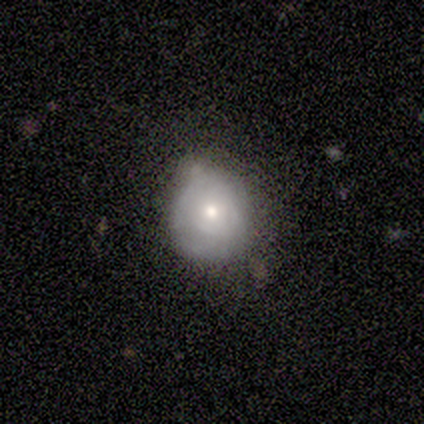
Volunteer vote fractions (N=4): Volunteers were most divided on "merging" (2-way tie): minor disturbance: 50%, major disturbance: 50%, none: 0%, merger: 0%. More confident: edge-on disk — no (100%); bar — no (100%); spiral arms — no (100%); smooth or featured — featured or disk (75%); bulge size — small (67%).